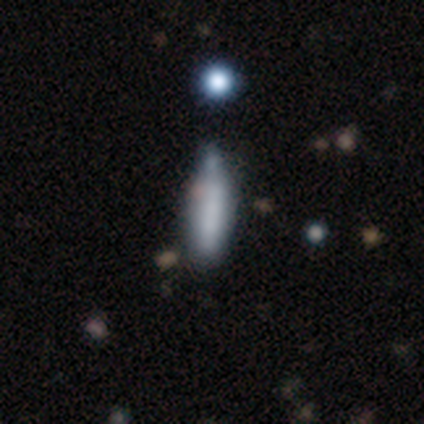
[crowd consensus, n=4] Morphology: type=smooth (100%); roundness=cigar-shaped (75%); merging=minor disturbance (75%).